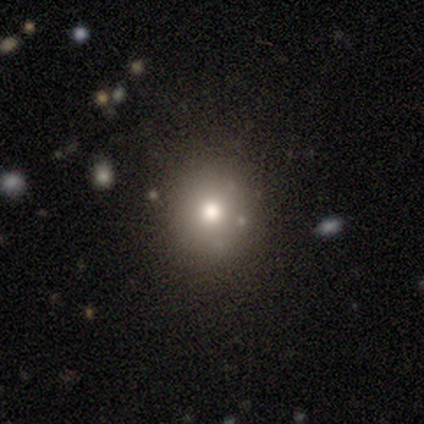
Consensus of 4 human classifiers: Smooth or featured? 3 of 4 (75%) said smooth. How rounded? 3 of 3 (100%) said round. Merging? 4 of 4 (100%) said none.